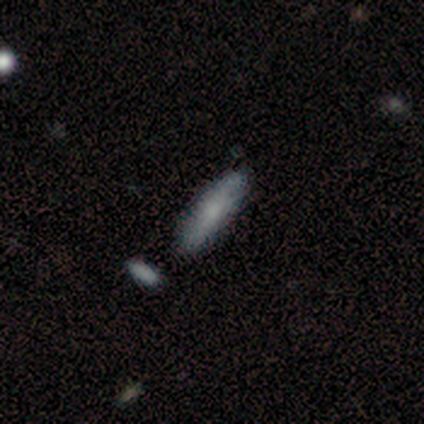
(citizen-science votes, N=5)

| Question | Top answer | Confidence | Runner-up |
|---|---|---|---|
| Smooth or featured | smooth | 60% | featured or disk (40%) |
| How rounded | cigar-shaped | 67% | in between (33%) |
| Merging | none | 100% | — |